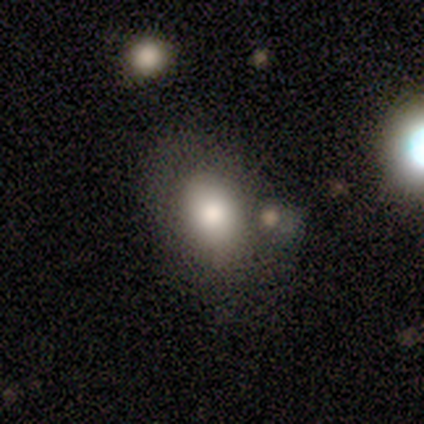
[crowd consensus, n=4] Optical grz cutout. It shows a smooth galaxy with no disk features (50%) that is in between round and cigar-shaped (100%). Merging: none (33%, tied with minor disturbance and major disturbance).